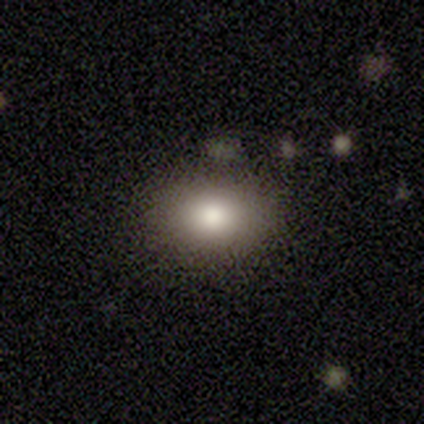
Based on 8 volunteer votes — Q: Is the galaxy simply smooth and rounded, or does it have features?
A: smooth — 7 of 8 (88%).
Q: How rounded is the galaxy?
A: in between — 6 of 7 (86%).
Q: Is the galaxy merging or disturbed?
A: none — 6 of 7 (86%).